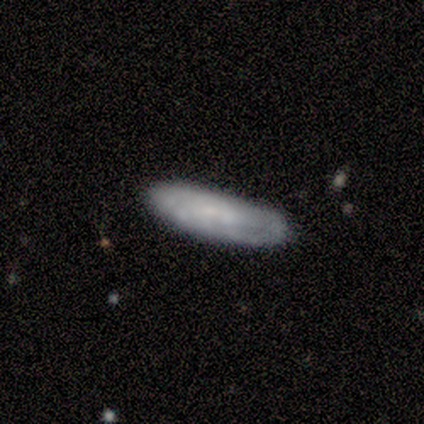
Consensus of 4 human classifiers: Smooth or featured: featured or disk — 100%
Edge-on disk: no — 75% (yes — 25%)
Bar: no — 100%
Spiral arms: no — 67% (yes — 33%)
Bulge size: none — 67% (moderate — 33%)
Merging: none — 75% (minor disturbance — 25%)